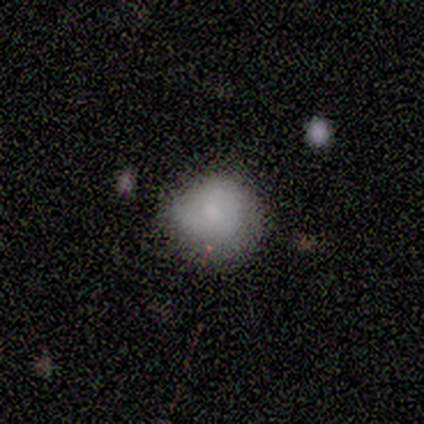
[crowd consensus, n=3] Morphology: type=smooth (33%, tied with featured or disk and star or artifact); roundness=round (100%); merging=none (100%).